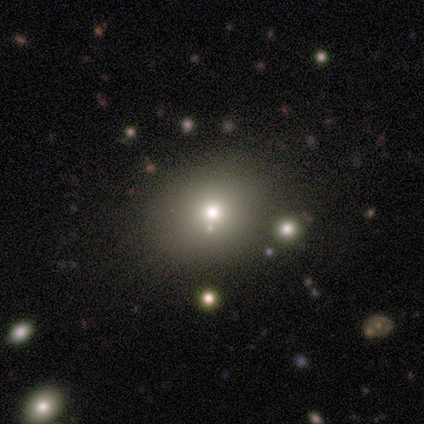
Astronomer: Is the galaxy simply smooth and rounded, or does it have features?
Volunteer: smooth — 56%.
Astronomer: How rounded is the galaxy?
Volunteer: round — 80%.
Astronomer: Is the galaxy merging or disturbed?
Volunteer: none — 57%.